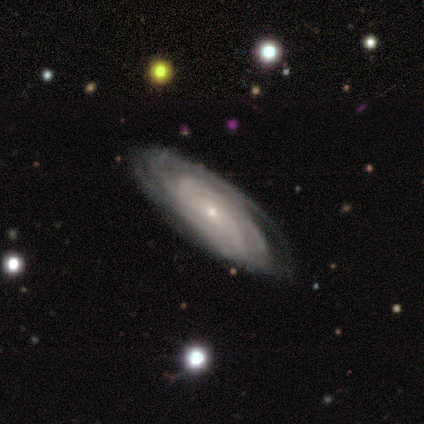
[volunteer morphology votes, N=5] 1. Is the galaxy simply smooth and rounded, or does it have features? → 100% featured or disk, 0% smooth, 0% star or artifact.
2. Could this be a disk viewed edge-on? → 100% no, 0% yes.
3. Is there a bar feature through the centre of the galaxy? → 80% no, 20% weak, 0% strong.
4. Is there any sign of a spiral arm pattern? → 100% yes, 0% no.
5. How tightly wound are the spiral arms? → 80% tight, 20% medium, 0% loose.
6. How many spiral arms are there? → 80% can't tell, 20% 3, 0% 1, 0% 2, 0% 4, 0% more than 4.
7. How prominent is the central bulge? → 100% small, 0% dominant, 0% large, 0% moderate, 0% none.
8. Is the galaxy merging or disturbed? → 60% none, 40% minor disturbance, 0% major disturbance, 0% merger.